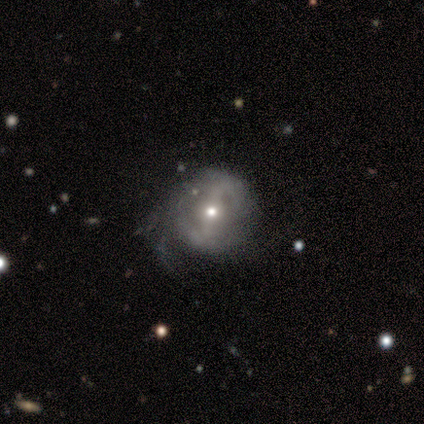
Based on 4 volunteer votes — featured or disk 75%, smooth 25%, star or artifact 0%. Down the decision tree: edge-on disk — no (100%); bar — weak (67%); spiral arms — no (67%); bulge size — small (67%); merging — minor disturbance (50%, tied with major disturbance).